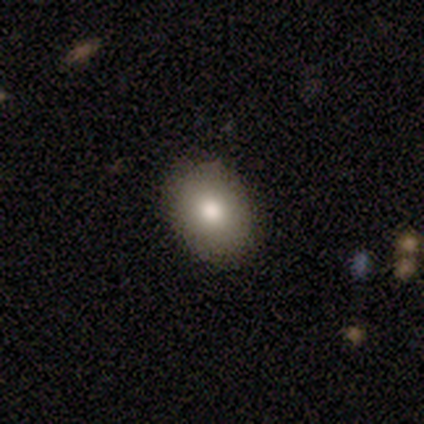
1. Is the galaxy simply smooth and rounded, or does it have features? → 75% smooth, 25% star or artifact, 0% featured or disk.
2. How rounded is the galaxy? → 67% in between, 33% round, 0% cigar-shaped.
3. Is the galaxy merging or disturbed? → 100% none, 0% minor disturbance, 0% major disturbance, 0% merger.